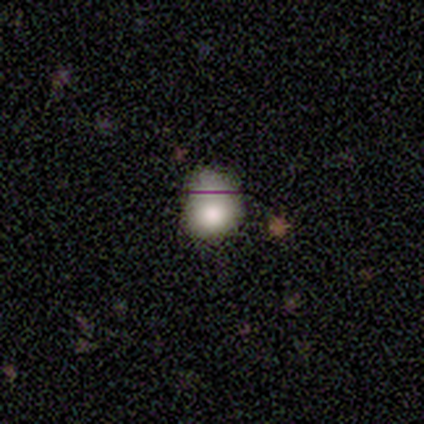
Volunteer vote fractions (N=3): A smooth galaxy with no disk features (67%) that is round (50%, tied with in between). Merging: minor disturbance (50%, tied with major disturbance).